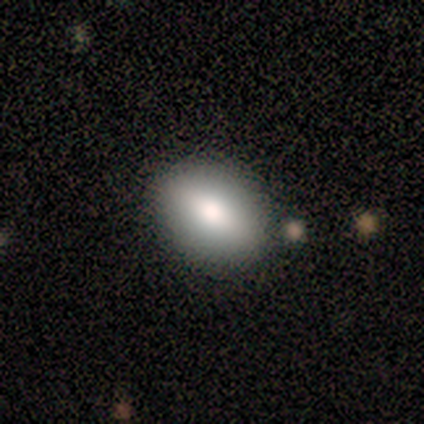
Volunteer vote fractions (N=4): Q: Smooth or featured?
A: smooth (75%); runner-up: featured or disk (25%)
Q: How rounded?
A: round (67%); runner-up: in between (33%)
Q: Merging?
A: none (100%)